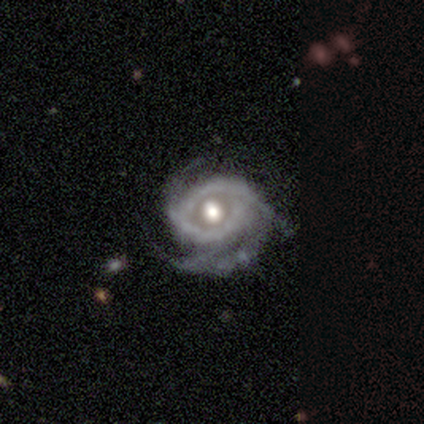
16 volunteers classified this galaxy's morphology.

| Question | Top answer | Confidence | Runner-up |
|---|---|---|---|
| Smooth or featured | featured or disk | 100% | — |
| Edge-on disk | no | 100% | — |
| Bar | no | 75% | strong (12%) |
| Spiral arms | yes | 94% | no (6%) |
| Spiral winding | medium | 80% | tight (20%) |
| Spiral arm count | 3 | 80% | 2 (13%) |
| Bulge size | moderate | 69% | large (25%) |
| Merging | none | 44% | minor disturbance (31%) |